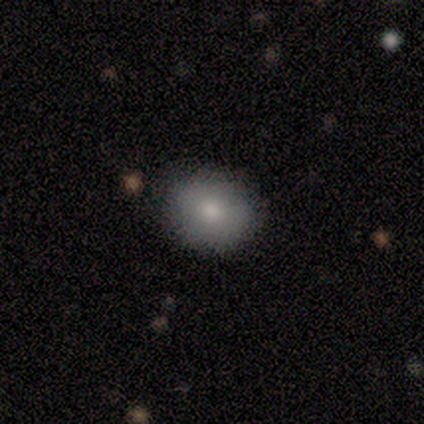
A smooth galaxy with no disk features (60%) that is round (67%).

Vote fractions:
- Smooth or featured? smooth: 60% / featured or disk: 20% / star or artifact: 20%
- How rounded? round: 67% / in between: 33% / cigar-shaped: 0%
- Merging? none: 50% (tied) / minor disturbance: 50% (tied) / major disturbance: 0% / merger: 0%